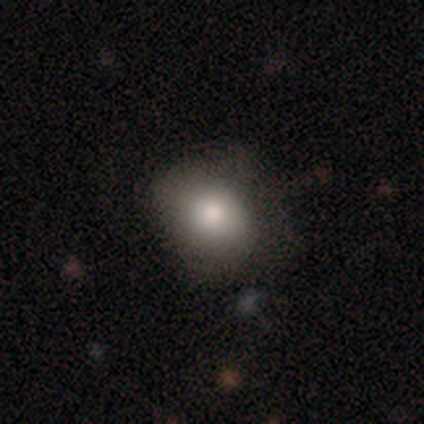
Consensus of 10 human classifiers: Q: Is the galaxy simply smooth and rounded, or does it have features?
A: smooth — 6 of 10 (60%).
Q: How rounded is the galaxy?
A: round — 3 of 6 (50%, tied with in between).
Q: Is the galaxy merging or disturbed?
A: none — 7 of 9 (78%).